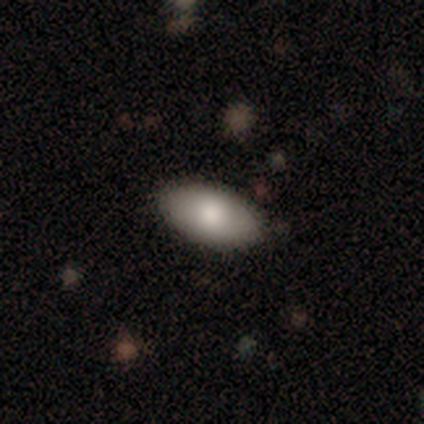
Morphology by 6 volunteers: Q: Smooth or featured?
A: smooth (100%)
Q: How rounded?
A: in between (100%)
Q: Merging?
A: none (100%)